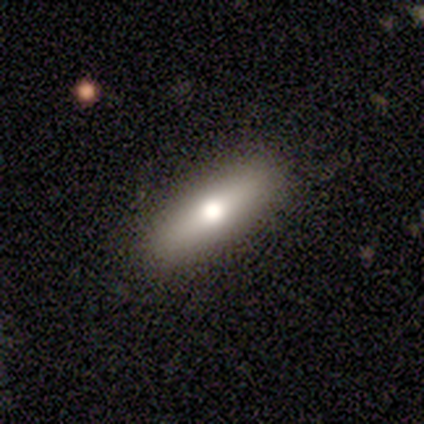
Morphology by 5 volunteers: Overall: smooth (60%; featured or disk 40%). How rounded: cigar-shaped (67%; in between 33%). Merging: none (100%).